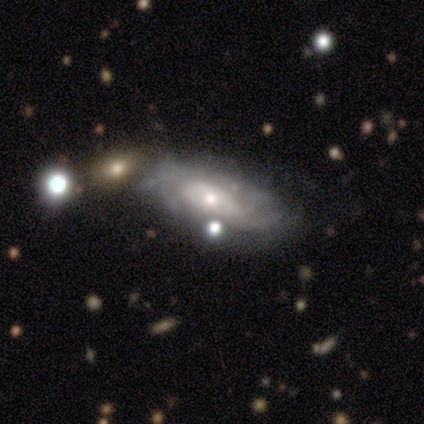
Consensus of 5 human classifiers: A featured or disk galaxy (80%) with no bar (100%), tight (75%) spiral arms (100%) and a small central bulge (50%). Merging: merger (50%).